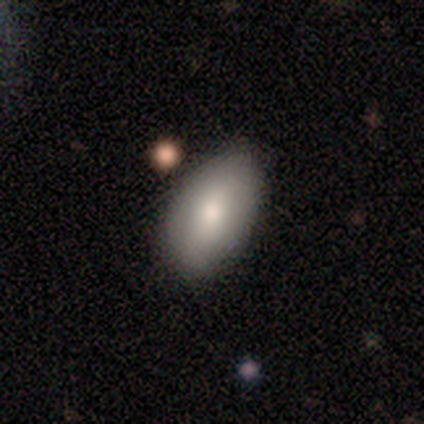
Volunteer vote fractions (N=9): Q: Smooth or featured?
A: smooth (89%); runner-up: featured or disk (11%)
Q: How rounded?
A: in between (100%)
Q: Merging?
A: none (78%); runner-up: minor disturbance (22%)